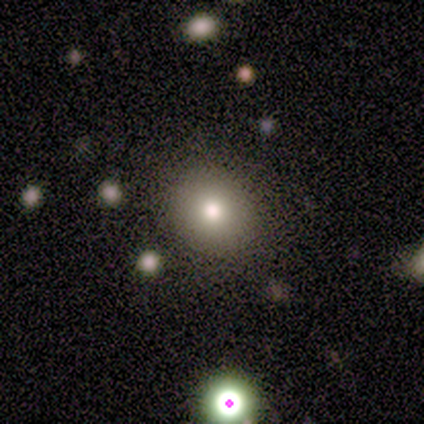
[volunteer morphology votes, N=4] A smooth galaxy with no disk features (50%, tied with star or artifact) that is round (100%).

Vote fractions:
- Smooth or featured? smooth: 50% (tied) / star or artifact: 50% (tied) / featured or disk: 0%
- How rounded? round: 100% / in between: 0% / cigar-shaped: 0%
- Merging? none: 100% / minor disturbance: 0% / major disturbance: 0% / merger: 0%